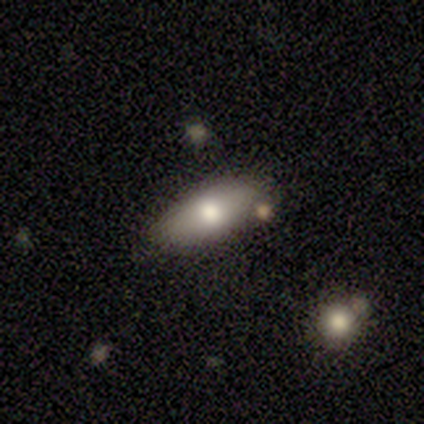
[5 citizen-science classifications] Overall: featured or disk (60%; smooth 40%). Edge-on disk: no (100%). Bar: no (67%; strong 33%). Spiral arms: no (100%). Bulge size: moderate (100%). Merging: none (80%).